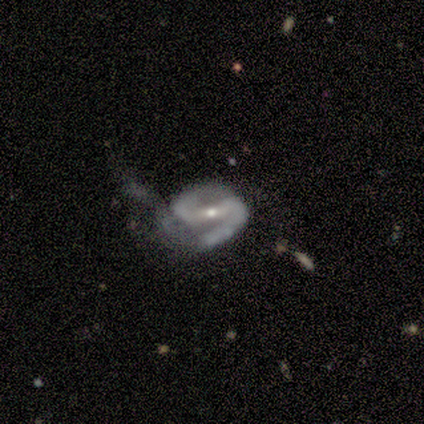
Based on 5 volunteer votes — This is clearly a featured or disk galaxy (80%). It is clearly not viewed edge-on (100%). Bar: likely weak (75%). Spiral arm pattern: clearly yes (100%). Spiral arm count: clearly 2 (100%). Spiral winding: possibly loose (50%). Central bulge: likely moderate (75%). Merging: possibly major disturbance (50%).